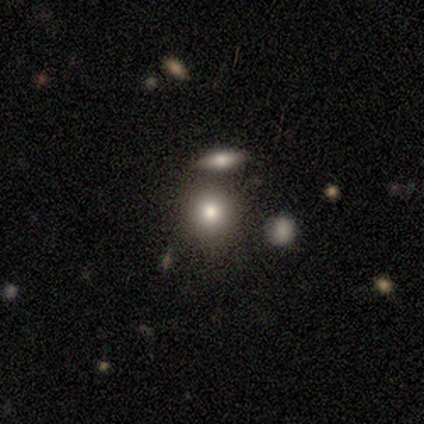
smooth-or-featured: smooth: 100% | featured or disk: 0% | star or artifact: 0%
  how-rounded: round: 75% | in between: 25% | cigar-shaped: 0%
  merging: none: 100% | minor disturbance: 0% | major disturbance: 0% | merger: 0%